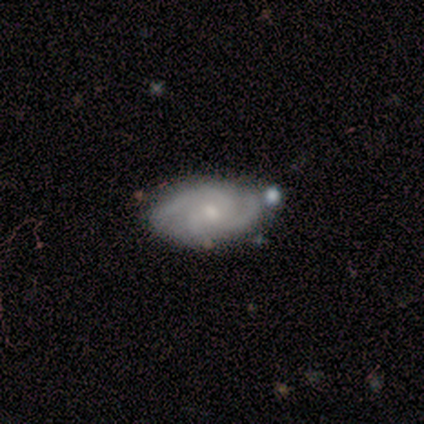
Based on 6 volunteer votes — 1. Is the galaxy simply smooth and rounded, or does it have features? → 67% featured or disk, 33% smooth, 0% star or artifact.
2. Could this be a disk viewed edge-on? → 75% no, 25% yes.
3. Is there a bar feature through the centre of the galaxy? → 100% weak, 0% strong, 0% no.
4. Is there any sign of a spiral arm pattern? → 67% yes, 33% no.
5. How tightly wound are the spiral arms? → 100% medium, 0% tight, 0% loose.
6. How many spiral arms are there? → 100% 3, 0% 1, 0% 2, 0% 4, 0% more than 4, 0% can't tell.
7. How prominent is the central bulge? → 33% moderate (tied), 33% small (tied), 33% none (tied), 0% dominant, 0% large.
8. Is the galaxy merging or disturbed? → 50% none (tied), 50% minor disturbance (tied), 0% major disturbance, 0% merger.